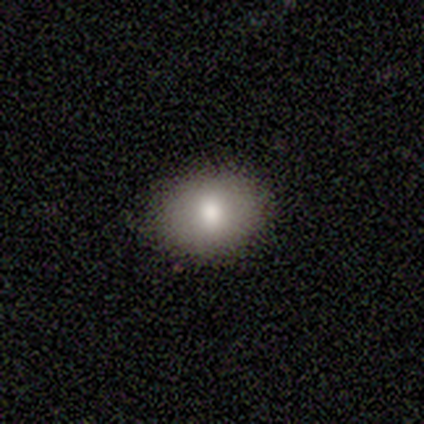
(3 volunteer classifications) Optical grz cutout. It shows a smooth galaxy with no disk features (67%) that is round (50%, tied with in between). Merging: none (100%).